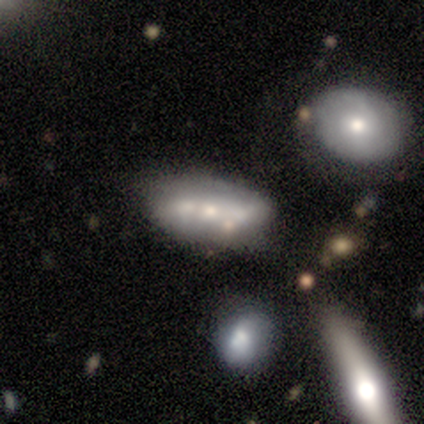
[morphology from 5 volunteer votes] smooth-or-featured: featured or disk: 60% | smooth: 40% | star or artifact: 0%
  disk-edge-on: no: 67% | yes: 33%
    bar: no: 100% | strong: 0% | weak: 0%
    has-spiral-arms: no: 100% | yes: 0%
    bulge-size: moderate: 50% (tied) | small: 50% (tied) | dominant: 0% | large: 0% | none: 0%
  merging: minor disturbance: 40% (tied) | merger: 40% (tied) | none: 20% | major disturbance: 0%